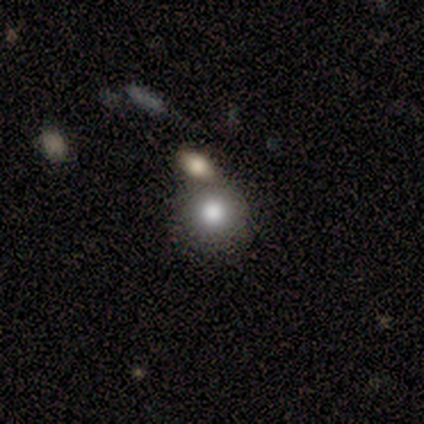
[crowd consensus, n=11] smooth-or-featured: smooth: 64% | featured or disk: 18% | star or artifact: 18%
  how-rounded: round: 86% | in between: 14% | cigar-shaped: 0%
  merging: none: 44% (tied) | merger: 44% (tied) | minor disturbance: 11% | major disturbance: 0%